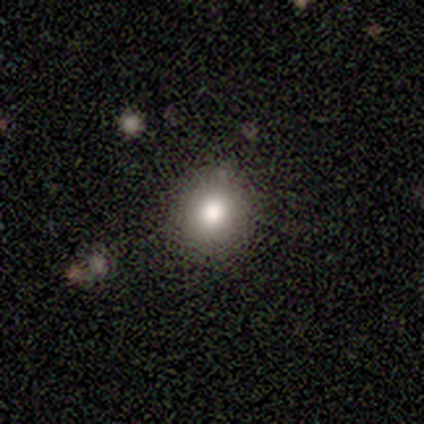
Smooth or featured? 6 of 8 (75%) said smooth. How rounded? 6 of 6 (100%) said round. Merging? 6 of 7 (86%) said none.